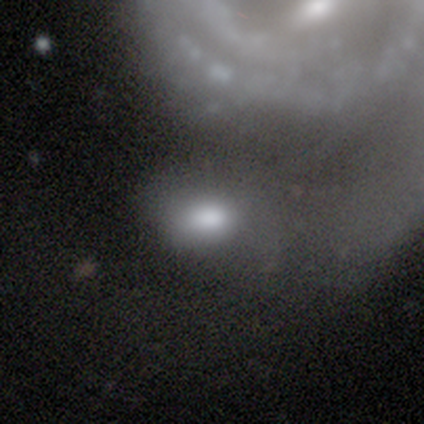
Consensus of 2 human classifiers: A smooth galaxy with no disk features (100%) that is in between round and cigar-shaped (100%). Merging: merger (100%).